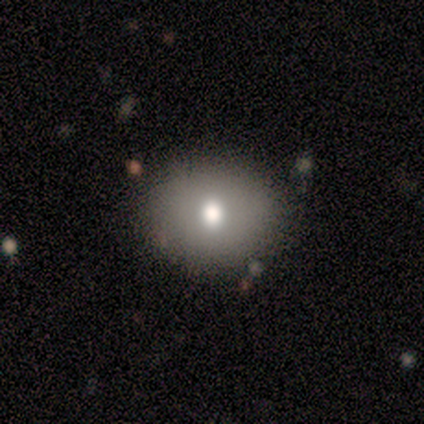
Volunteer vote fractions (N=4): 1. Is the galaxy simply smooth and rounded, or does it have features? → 100% smooth, 0% featured or disk, 0% star or artifact.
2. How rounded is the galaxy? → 100% round, 0% in between, 0% cigar-shaped.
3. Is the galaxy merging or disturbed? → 100% none, 0% minor disturbance, 0% major disturbance, 0% merger.